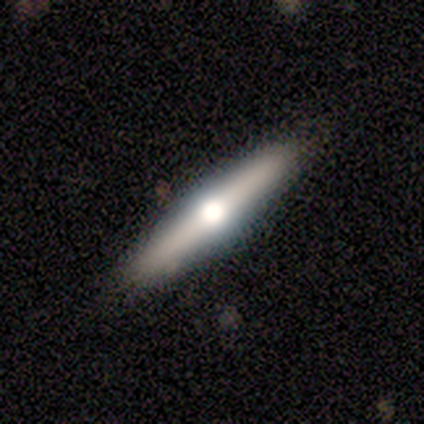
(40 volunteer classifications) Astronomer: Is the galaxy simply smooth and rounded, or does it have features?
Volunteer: featured or disk — 65%.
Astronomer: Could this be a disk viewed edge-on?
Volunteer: yes — 92%.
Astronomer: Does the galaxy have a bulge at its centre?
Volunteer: rounded — 96%.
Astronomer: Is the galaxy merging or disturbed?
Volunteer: none — 88%.